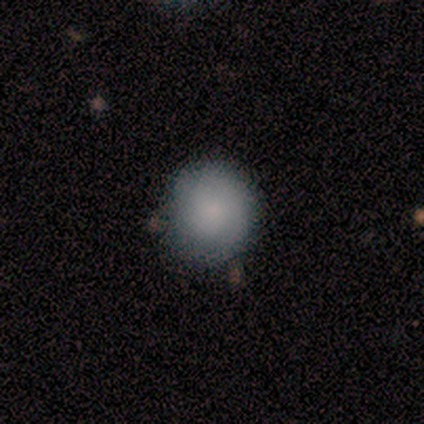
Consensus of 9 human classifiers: A smooth galaxy with no disk features (89%) that is round (88%).

Vote fractions:
- Smooth or featured? smooth: 89% / featured or disk: 11% / star or artifact: 0%
- How rounded? round: 88% / in between: 12% / cigar-shaped: 0%
- Merging? none: 89% / minor disturbance: 11% / major disturbance: 0% / merger: 0%